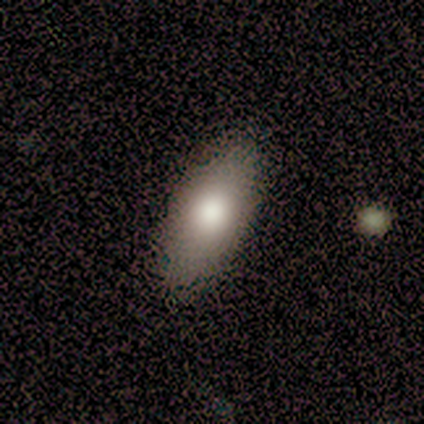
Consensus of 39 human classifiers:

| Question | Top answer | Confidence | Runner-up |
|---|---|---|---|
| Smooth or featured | smooth | 79% | featured or disk (21%) |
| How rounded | in between | 81% | cigar-shaped (19%) |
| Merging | none | 72% | minor disturbance (8%) |